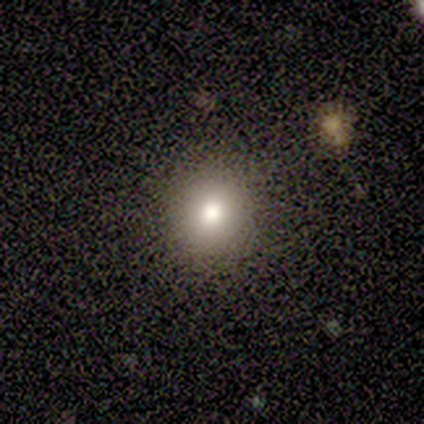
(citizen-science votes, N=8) smooth-or-featured: smooth: 62% | star or artifact: 25% | featured or disk: 12%
  how-rounded: round: 100% | in between: 0% | cigar-shaped: 0%
  merging: none: 100% | minor disturbance: 0% | major disturbance: 0% | merger: 0%